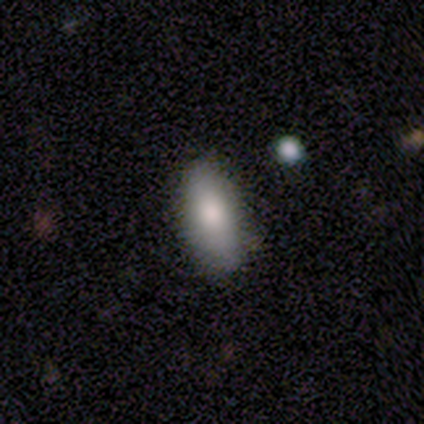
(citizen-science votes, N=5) This is clearly a smooth galaxy (80%). How rounded: clearly in between (100%). Merging: likely none (60%).